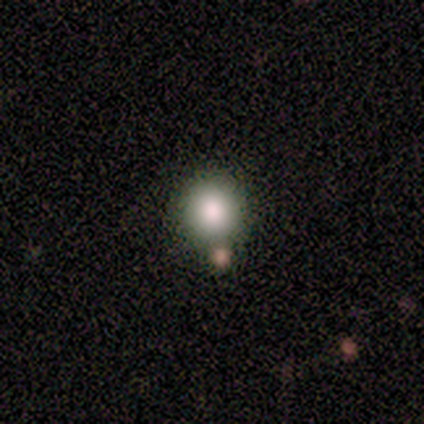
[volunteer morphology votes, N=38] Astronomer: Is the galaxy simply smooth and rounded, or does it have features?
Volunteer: smooth — 82%.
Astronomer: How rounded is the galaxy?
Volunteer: round — 87%.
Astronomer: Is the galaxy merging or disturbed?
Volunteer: none — 85%.